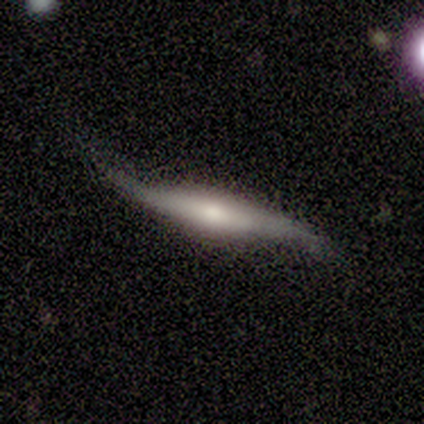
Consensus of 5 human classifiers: smooth_or_featured: featured or disk (p=1.00)
disk_edge_on: yes (p=0.80) [alt: no p=0.20]
edge_on_bulge: rounded (p=1.00)
merging: none (p=0.80) [alt: minor disturbance p=0.20]